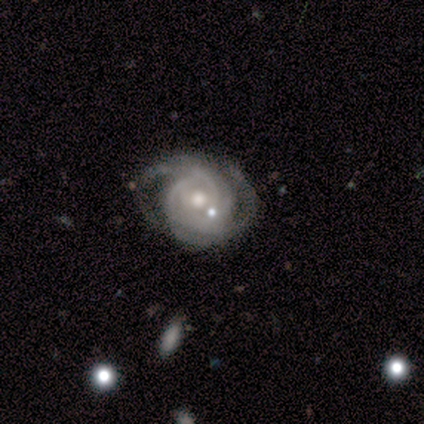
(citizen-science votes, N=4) This is likely a featured or disk galaxy (75%). It is clearly not viewed edge-on (100%). Bar: likely no (67%). Spiral arm pattern: clearly yes (100%). Spiral arm count: likely 2 (67%). Spiral winding: clearly tight (100%). Central bulge: clearly moderate (100%). Merging: likely none (67%).